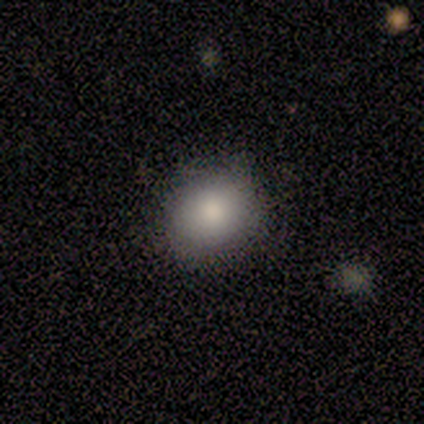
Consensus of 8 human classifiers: Smooth or featured? smooth (75%)
How rounded? round (50%, tied with in between)
Merging? none (71%)